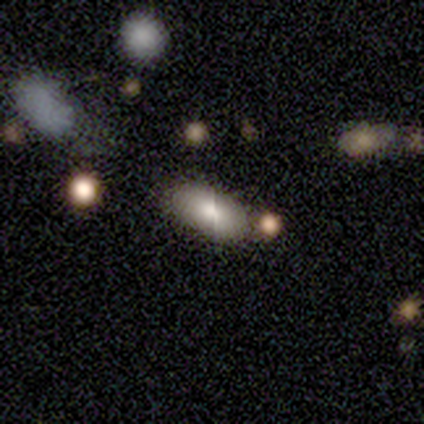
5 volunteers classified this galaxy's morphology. A smooth galaxy with no disk features (60%) that is in between round and cigar-shaped (100%).

Vote fractions:
- Smooth or featured? smooth: 60% / featured or disk: 20% / star or artifact: 20%
- How rounded? in between: 100% / round: 0% / cigar-shaped: 0%
- Merging? none: 50% (tied) / merger: 50% (tied) / minor disturbance: 0% / major disturbance: 0%